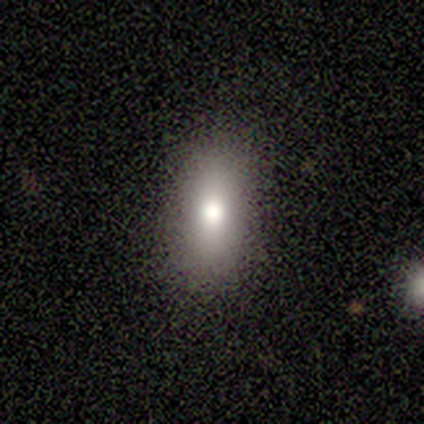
A smooth galaxy with no disk features (60%) that is in between round and cigar-shaped (100%). Merging: none (60%).